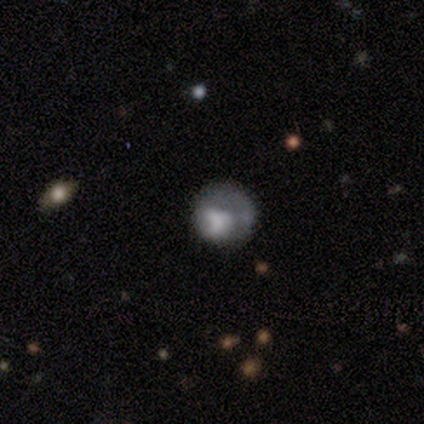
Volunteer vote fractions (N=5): smooth_or_featured: featured or disk (p=0.60) [alt: smooth p=0.20]
disk_edge_on: no (p=1.00)
bar: no (p=1.00)
has_spiral_arms: no (p=1.00)
bulge_size: large (p=0.33) [tied with: moderate p=0.33, none p=0.33]
merging: none (p=0.50) [alt: minor disturbance p=0.25]